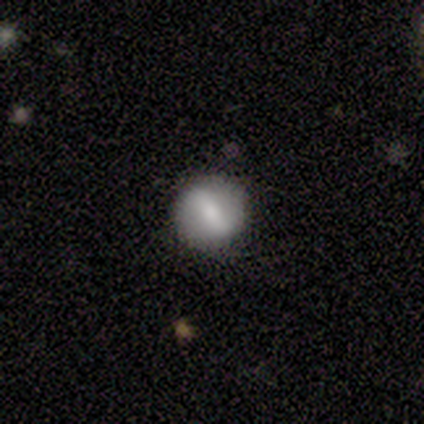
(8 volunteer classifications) Smooth or featured? featured or disk (62%)
Edge-on disk? no (100%)
Bar? strong (40%, tied with no)
Spiral arms? no (60%)
Bulge size? moderate (60%)
Merging? none (100%)